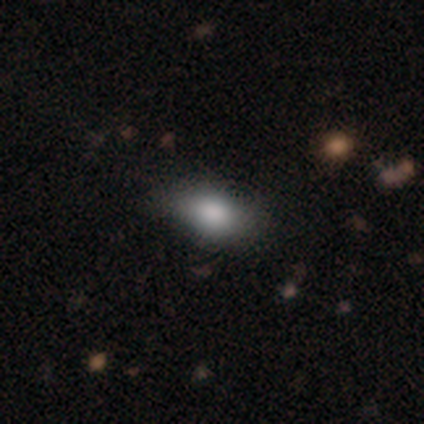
Smooth or featured?
  - smooth: 80% *
  - featured or disk: 20%
  - star or artifact: 0%
How rounded?
  - in between: 75% *
  - cigar-shaped: 25%
  - round: 0%
Merging?
  - none: 80% *
  - minor disturbance: 20%
  - major disturbance: 0%
  - merger: 0%